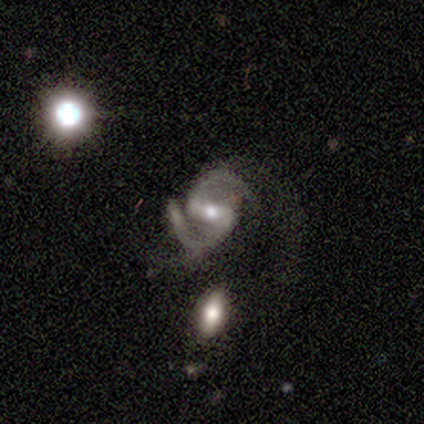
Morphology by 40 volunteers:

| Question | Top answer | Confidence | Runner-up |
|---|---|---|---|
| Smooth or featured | featured or disk | 98% | smooth (2%) |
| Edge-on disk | no | 92% | yes (8%) |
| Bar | strong | 58% | weak (39%) |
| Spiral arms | yes | 97% | no (3%) |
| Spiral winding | medium | 60% | loose (31%) |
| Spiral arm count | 2 | 94% | 4 (6%) |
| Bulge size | moderate | 61% | small (33%) |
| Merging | none | 42% | major disturbance (25%) |